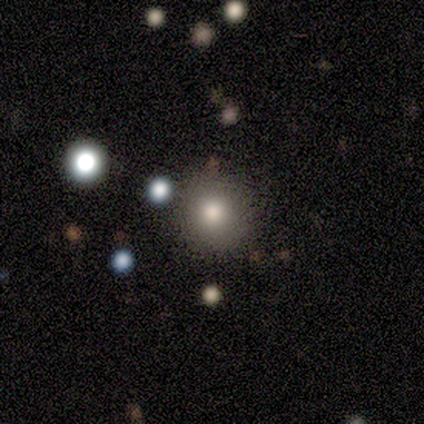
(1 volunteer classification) Overall: featured or disk (100%). Edge-on disk: no (100%). Bar: no (100%). Spiral arms: no (100%). Bulge size: large (100%). Merging: none (100%).